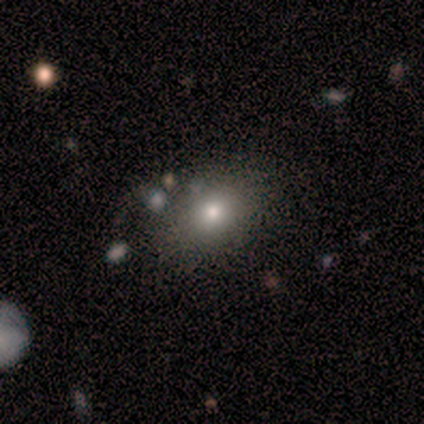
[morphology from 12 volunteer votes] A smooth galaxy with no disk features (58%) that is in between round and cigar-shaped (57%). Merging: none (91%).